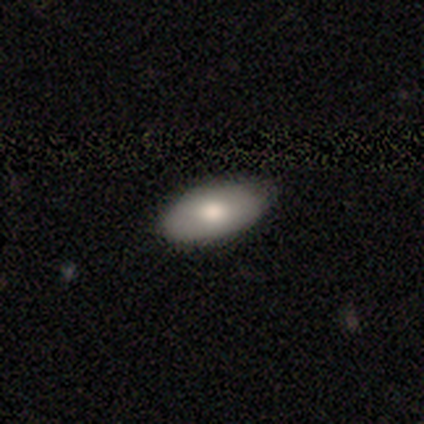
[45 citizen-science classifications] smooth_or_featured: smooth (p=0.84) [alt: featured or disk p=0.13]
how_rounded: in between (p=0.95) [alt: round p=0.05]
merging: none (p=0.91) [alt: minor disturbance p=0.09]